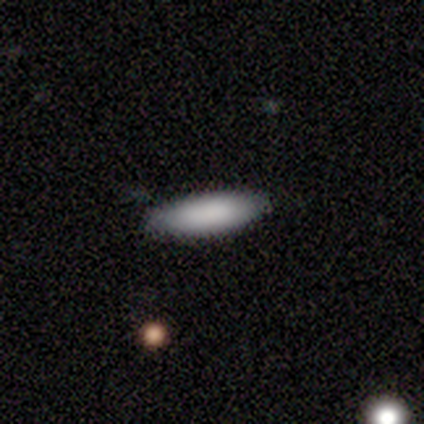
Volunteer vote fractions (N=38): Q: Smooth or featured?
A: smooth (87%); runner-up: featured or disk (8%)
Q: How rounded?
A: cigar-shaped (58%); runner-up: in between (42%)
Q: Merging?
A: none (92%); runner-up: minor disturbance (8%)